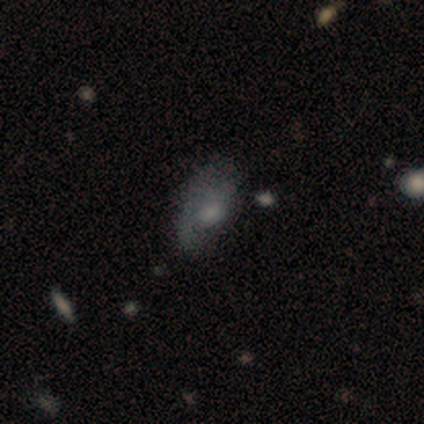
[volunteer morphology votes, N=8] A smooth galaxy with no disk features (75%) that is in between round and cigar-shaped (83%). Merging: minor disturbance (62%).